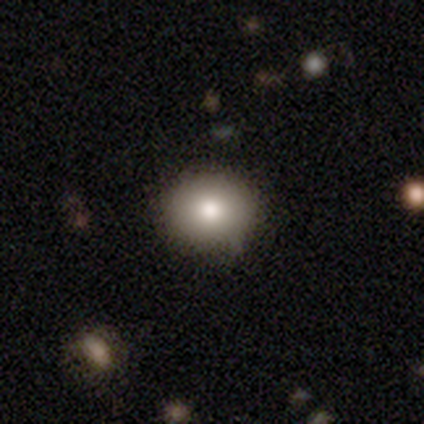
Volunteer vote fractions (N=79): A smooth galaxy with no disk features (85%) that is round (78%).

Vote fractions:
- Smooth or featured? smooth: 85% / featured or disk: 9% / star or artifact: 6%
- How rounded? round: 78% / in between: 22% / cigar-shaped: 0%
- Merging? none: 43% / minor disturbance: 5% / merger: 1% / major disturbance: 0%